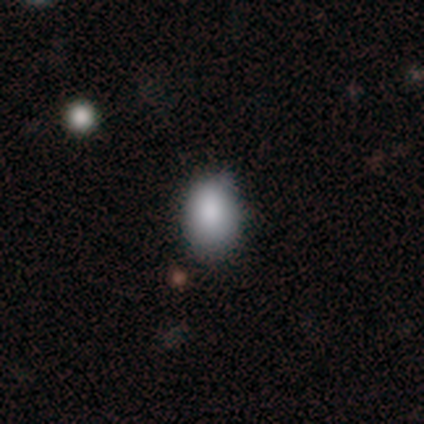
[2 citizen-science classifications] smooth-or-featured: smooth: 100% | featured or disk: 0% | star or artifact: 0%
  how-rounded: in between: 100% | round: 0% | cigar-shaped: 0%
  merging: none: 100% | minor disturbance: 0% | major disturbance: 0% | merger: 0%